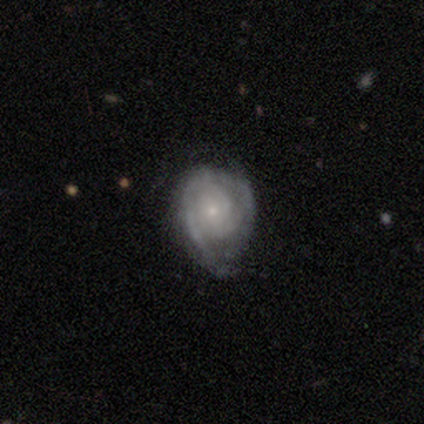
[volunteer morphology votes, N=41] This appears to be a featured or disk galaxy (80%) with no bar (70%), tight (91%) spiral arms (97%) and a small central bulge (82%). Merging: minor disturbance (30%).